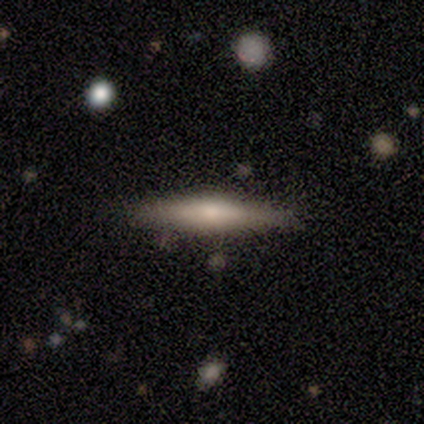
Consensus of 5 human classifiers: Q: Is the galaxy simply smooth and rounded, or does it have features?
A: featured or disk — 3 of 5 (60%).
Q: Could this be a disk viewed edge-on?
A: yes — 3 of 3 (100%).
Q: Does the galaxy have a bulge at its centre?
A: rounded — 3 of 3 (100%).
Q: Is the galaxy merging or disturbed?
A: none — 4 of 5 (80%).